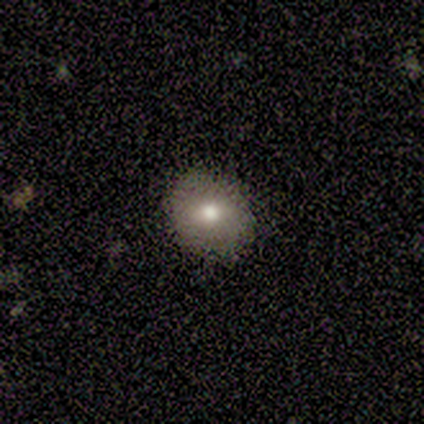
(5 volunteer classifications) Overall: smooth (60%; featured or disk 20%). How rounded: round (67%; in between 33%). Merging: none (75%).